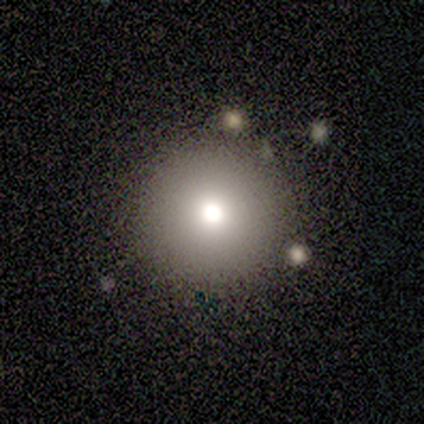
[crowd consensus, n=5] Q: Smooth or featured?
A: smooth (80%); runner-up: star or artifact (20%)
Q: How rounded?
A: round (100%)
Q: Merging?
A: none (50%); runner-up: minor disturbance (25%)